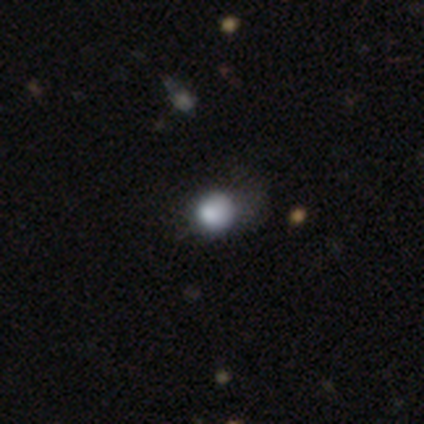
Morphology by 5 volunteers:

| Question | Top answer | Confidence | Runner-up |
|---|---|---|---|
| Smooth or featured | smooth | 100% | — |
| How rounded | round | 80% | in between (20%) |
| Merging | none | 40% | tied: minor disturbance (40%) |